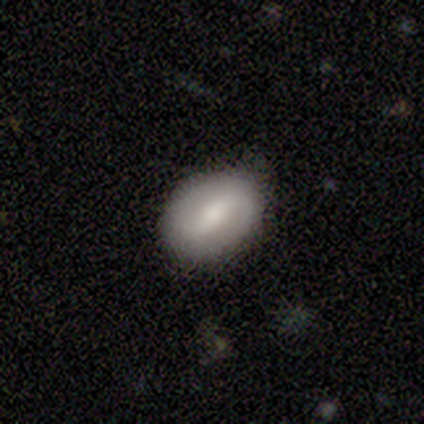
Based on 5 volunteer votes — Volunteers were most divided on "smooth or featured": smooth: 60%, featured or disk: 40%, star or artifact: 0%. More confident: how rounded — in between (100%); merging — none (80%).